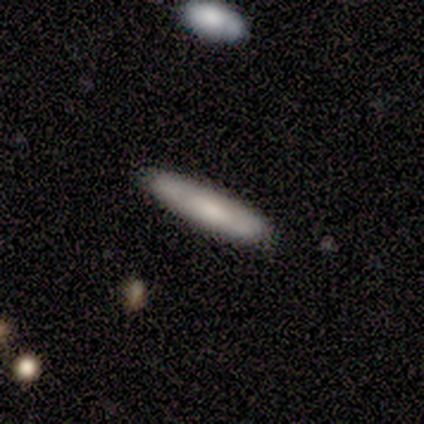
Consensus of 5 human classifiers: A smooth galaxy with no disk features (60%) that is cigar-shaped (100%).

Vote fractions:
- Smooth or featured? smooth: 60% / featured or disk: 40% / star or artifact: 0%
- How rounded? cigar-shaped: 100% / round: 0% / in between: 0%
- Merging? none: 100% / minor disturbance: 0% / major disturbance: 0% / merger: 0%